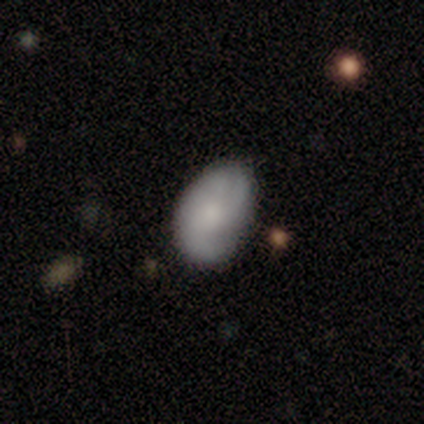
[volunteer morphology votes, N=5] smooth_or_featured: featured or disk (p=0.60) [alt: smooth p=0.40]
disk_edge_on: no (p=1.00)
bar: no (p=1.00)
has_spiral_arms: yes (p=0.67) [alt: no p=0.33]
spiral_winding: medium (p=0.50) [tied with: loose p=0.50]
spiral_arm_count: 1 (p=0.50) [tied with: 2 p=0.50]
bulge_size: moderate (p=0.33) [tied with: small p=0.33, none p=0.33]
merging: none (p=0.80) [alt: minor disturbance p=0.20]